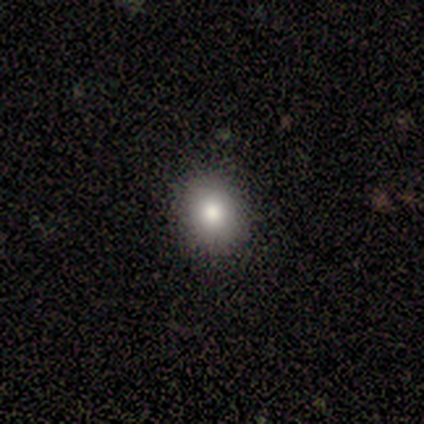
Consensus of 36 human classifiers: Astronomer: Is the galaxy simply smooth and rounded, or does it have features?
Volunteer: smooth — 81%.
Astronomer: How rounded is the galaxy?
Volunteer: round — 69%.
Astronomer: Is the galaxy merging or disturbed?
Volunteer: none — 91%.